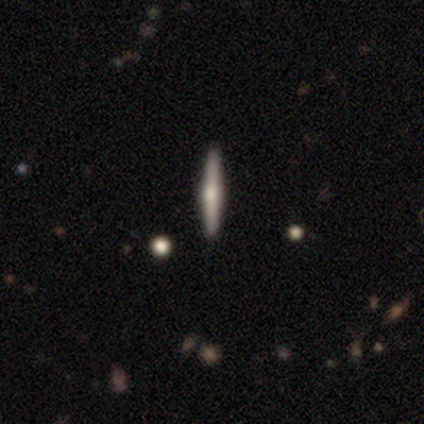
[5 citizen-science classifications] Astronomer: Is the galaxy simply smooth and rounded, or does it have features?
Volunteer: smooth — 60% (runner-up: featured or disk, 40%).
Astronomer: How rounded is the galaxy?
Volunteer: cigar-shaped — 100%.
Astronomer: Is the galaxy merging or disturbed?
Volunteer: none — 80%.